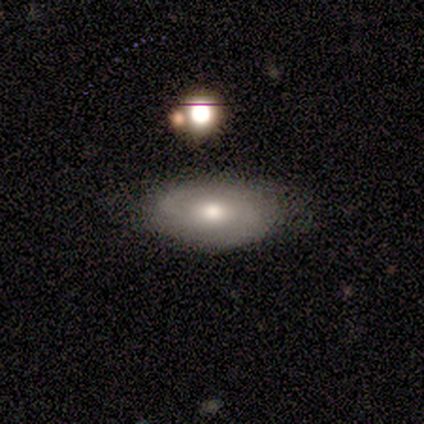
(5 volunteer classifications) Morphology: type=featured or disk (80%); edge-on=no (100%); bar=no (75%); spiral arms=yes (75%); winding=tight (67%); arm count=2 (67%); bulge=moderate (100%); merging=none (100%).